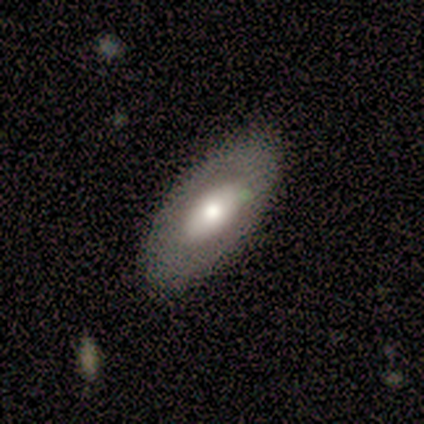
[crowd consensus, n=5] This appears to be a featured or disk galaxy (80%) with no bar (75%), no spiral arms (100%) and a moderate central bulge (75%). Merging: none (100%).